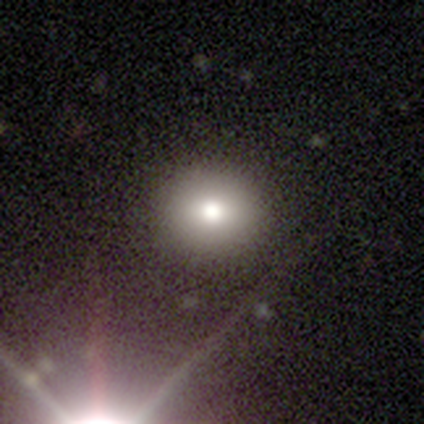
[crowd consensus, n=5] smooth_or_featured: smooth (p=1.00)
how_rounded: round (p=1.00)
merging: none (p=0.80) [alt: minor disturbance p=0.20]